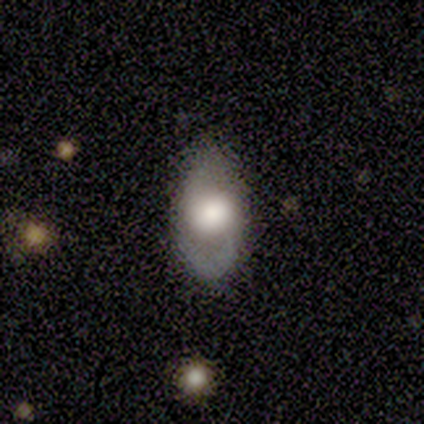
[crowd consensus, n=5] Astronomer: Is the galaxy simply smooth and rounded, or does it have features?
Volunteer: smooth — 60% (runner-up: featured or disk, 40%).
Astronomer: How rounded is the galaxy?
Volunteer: round — 33%, tied with in between and cigar-shaped at 33%.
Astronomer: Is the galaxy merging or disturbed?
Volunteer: none — 80%.